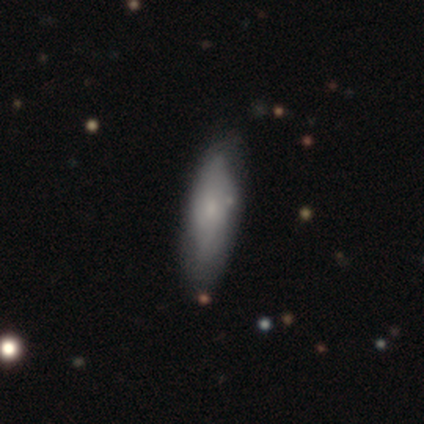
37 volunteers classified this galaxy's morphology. Smooth or featured? smooth (65%)
How rounded? in between (50%, tied with cigar-shaped)
Merging? none (59%)